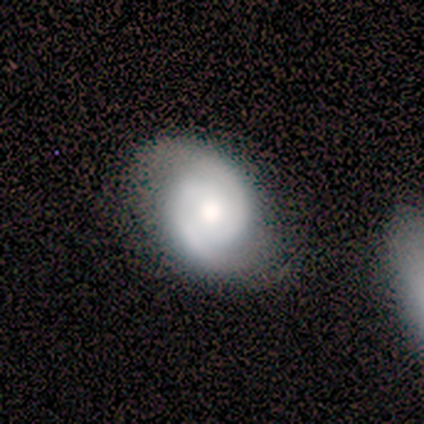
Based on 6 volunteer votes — featured or disk 100%, smooth 0%, star or artifact 0%. Down the decision tree: edge-on disk — no (100%); bar — no (83%); spiral arms — yes (100%); spiral arm count — 2 (83%); spiral winding — medium (50%); bulge size — moderate (50%); merging — none (83%).